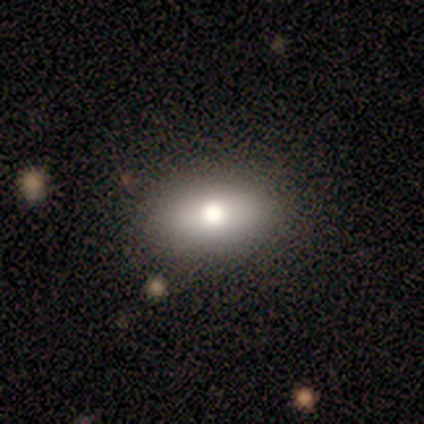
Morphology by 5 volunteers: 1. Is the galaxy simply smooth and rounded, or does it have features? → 60% smooth, 40% featured or disk, 0% star or artifact.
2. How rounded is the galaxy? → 33% round (tied), 33% in between (tied), 33% cigar-shaped (tied).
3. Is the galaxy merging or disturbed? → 100% none, 0% minor disturbance, 0% major disturbance, 0% merger.